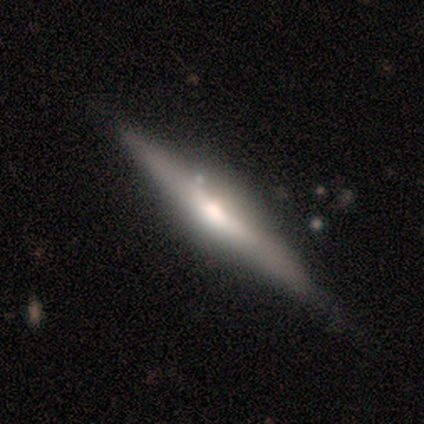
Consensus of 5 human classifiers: Smooth or featured?
  - featured or disk: 80% *
  - smooth: 20%
  - star or artifact: 0%
Edge-on disk?
  - yes: 100% *
  - no: 0%
Edge-on bulge?
  - rounded: 100% *
  - boxy: 0%
  - none: 0%
Merging?
  - none: 80% *
  - minor disturbance: 20%
  - major disturbance: 0%
  - merger: 0%